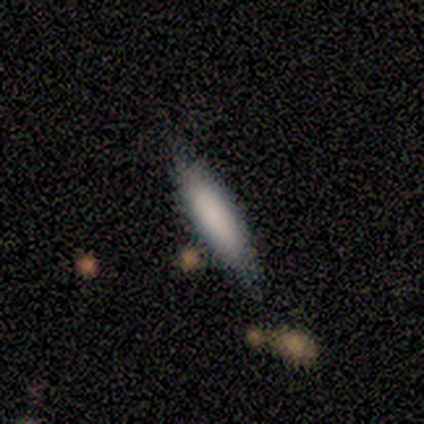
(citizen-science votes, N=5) Smooth or featured: smooth — 100%
How rounded: cigar-shaped — 100%
Merging: none — 80% (minor disturbance — 20%)